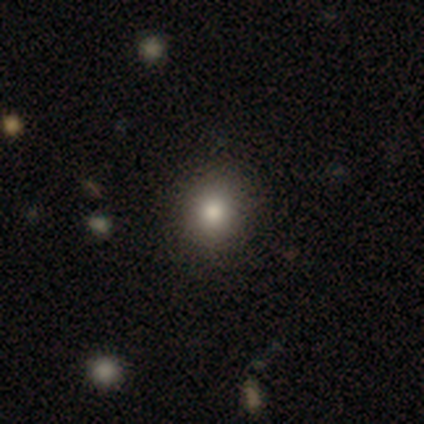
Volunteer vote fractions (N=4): Smooth or featured: smooth — 100%
How rounded: round — 100%
Merging: none — 75% (major disturbance — 25%)